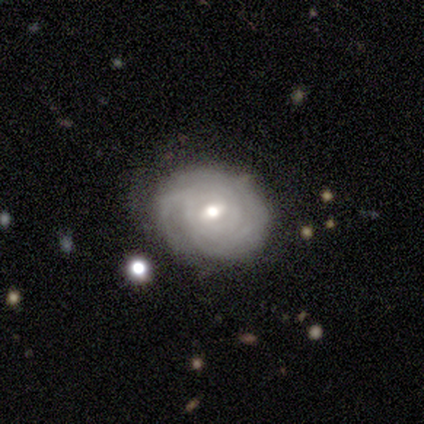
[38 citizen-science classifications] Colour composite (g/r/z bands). It shows a featured or disk galaxy (79%) with a weak bar (63%), tight (81%) spiral arms (87%) and a moderate central bulge (73%). Merging: none (84%).